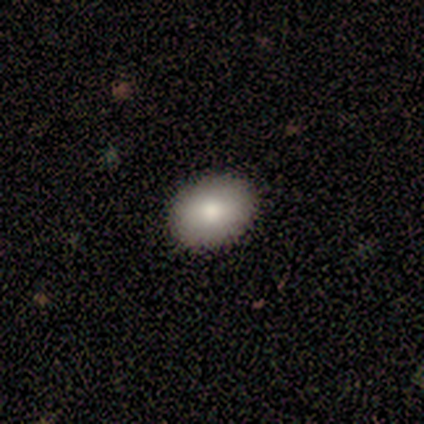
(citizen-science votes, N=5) Smooth or featured? smooth (80%)
How rounded? in between (75%)
Merging? none (100%)